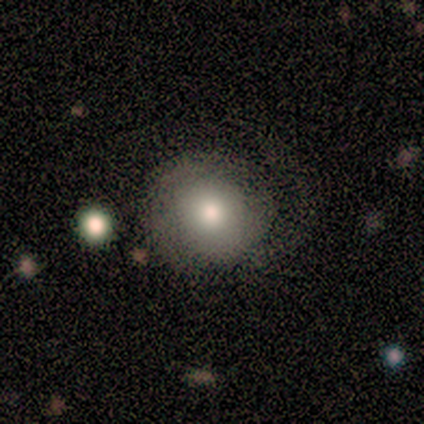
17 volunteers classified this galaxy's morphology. A smooth galaxy with no disk features (59%) that is round (90%). Merging: none (53%).